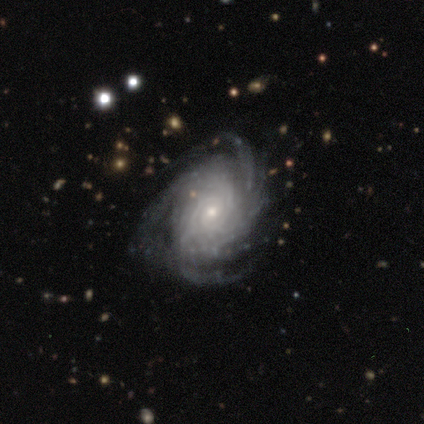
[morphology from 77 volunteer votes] Smooth or featured? featured or disk (90%)
Edge-on disk? no (99%)
Bar? no (72%)
Spiral arms? yes (99%)
Spiral winding? tight (69%)
Spiral arm count? more than 4 (37%)
Bulge size? small (68%)
Merging? none (31%)